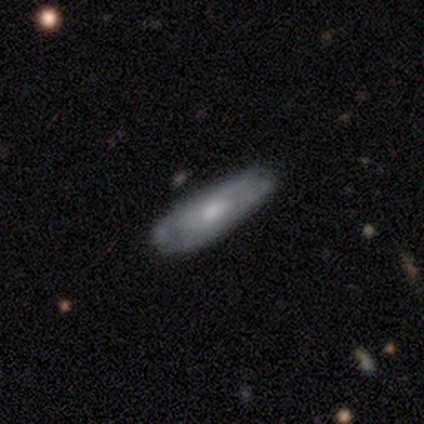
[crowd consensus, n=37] Smooth or featured? featured or disk (68%)
Edge-on disk? no (72%)
Bar? no (78%)
Spiral arms? yes (67%)
Spiral winding? tight (58%)
Spiral arm count? can't tell (75%)
Bulge size? moderate (61%)
Merging? none (43%)